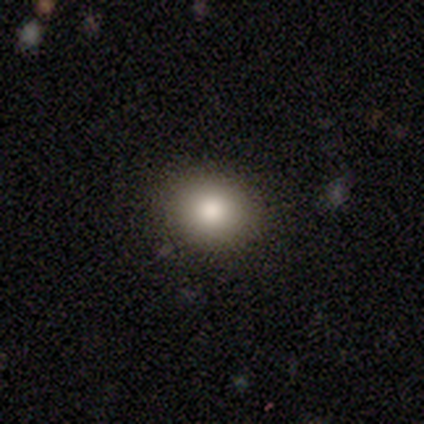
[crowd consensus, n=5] Morphology: type=smooth (60%); roundness=in between (100%); merging=none (75%).